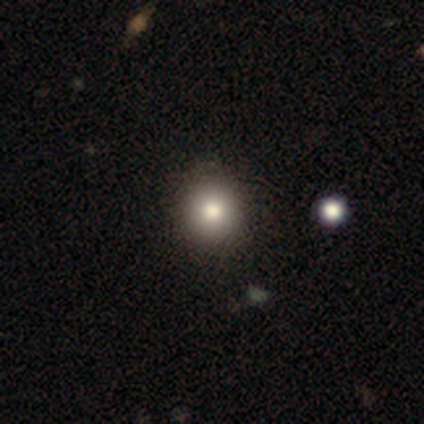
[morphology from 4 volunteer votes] Overall: smooth (50%, tied with featured or disk). How rounded: round (100%). Merging: none (100%).